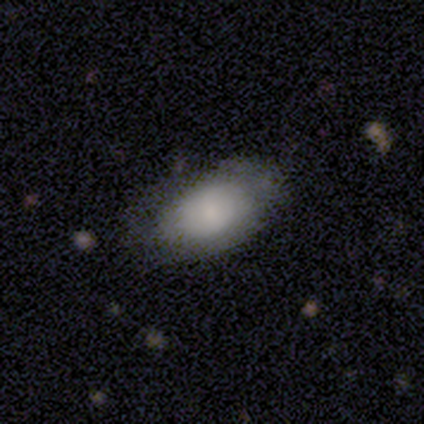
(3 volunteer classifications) Overall: smooth (67%; featured or disk 33%). How rounded: in between (100%). Merging: none (67%; minor disturbance 33%).